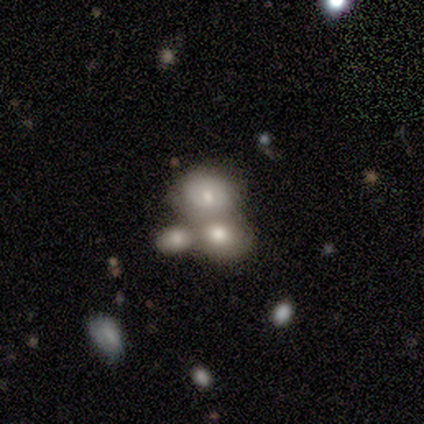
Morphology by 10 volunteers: Smooth or featured?
  - smooth: 80% *
  - star or artifact: 20%
  - featured or disk: 0%
How rounded?
  - round: 62% *
  - in between: 38%
  - cigar-shaped: 0%
Merging?
  - merger: 75% *
  - none: 25%
  - minor disturbance: 0%
  - major disturbance: 0%